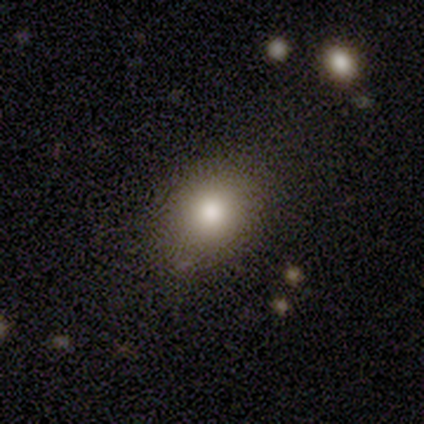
Smooth or featured: smooth — 75% (star or artifact — 25%)
How rounded: in between — 67% (round — 33%)
Merging: none — 100%